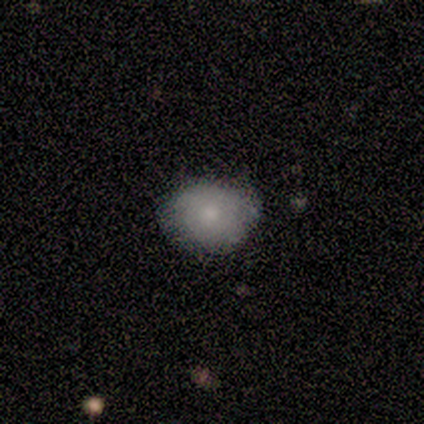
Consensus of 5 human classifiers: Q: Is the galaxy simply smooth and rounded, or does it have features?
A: smooth — 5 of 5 (100%).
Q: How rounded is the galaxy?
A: round — 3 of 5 (60%).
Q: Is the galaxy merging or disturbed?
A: minor disturbance — 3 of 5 (60%).